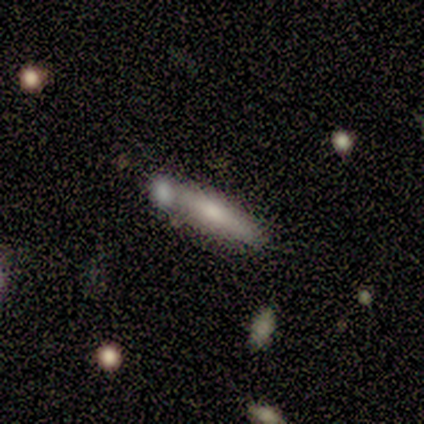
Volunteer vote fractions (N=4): Smooth or featured?
  - smooth: 50% * (tied)
  - featured or disk: 50% * (tied)
  - star or artifact: 0%
How rounded?
  - cigar-shaped: 100% *
  - round: 0%
  - in between: 0%
Merging?
  - none: 75% *
  - minor disturbance: 25%
  - major disturbance: 0%
  - merger: 0%